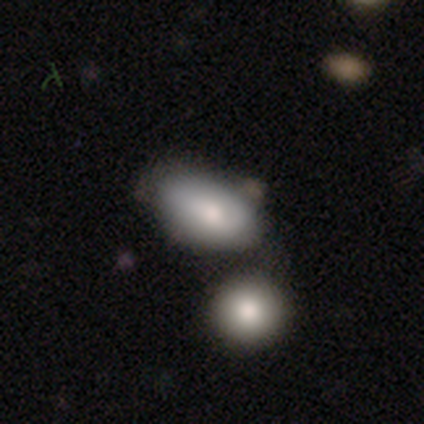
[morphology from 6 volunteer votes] This appears to be a smooth galaxy with no disk features (67%) that is in between round and cigar-shaped (100%). Merging: none (40%, tied with merger).